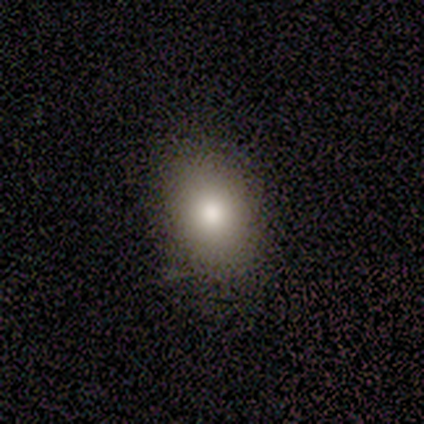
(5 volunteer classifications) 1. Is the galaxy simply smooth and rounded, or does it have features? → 60% smooth, 40% star or artifact, 0% featured or disk.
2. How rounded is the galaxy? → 67% in between, 33% round, 0% cigar-shaped.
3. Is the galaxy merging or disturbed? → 100% none, 0% minor disturbance, 0% major disturbance, 0% merger.